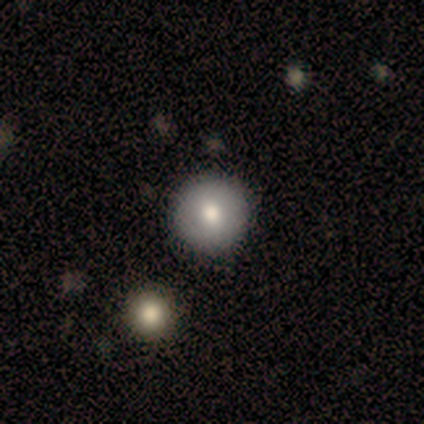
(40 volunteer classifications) Smooth or featured? 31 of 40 (78%) said smooth. How rounded? 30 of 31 (97%) said round. Merging? 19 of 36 (53%) said none.